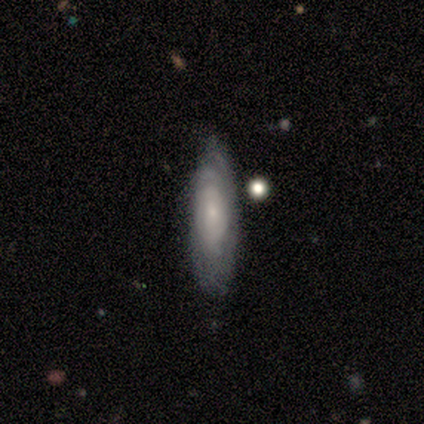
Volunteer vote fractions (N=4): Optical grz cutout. It shows a smooth galaxy with no disk features (75%) that is in between round and cigar-shaped (67%). Merging: none (50%, tied with minor disturbance).